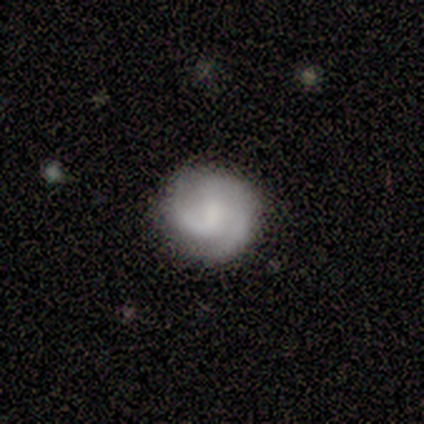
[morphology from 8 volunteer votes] smooth-or-featured: featured or disk: 75% | smooth: 25% | star or artifact: 0%
  disk-edge-on: no: 100% | yes: 0%
    bar: weak: 50% (tied) | no: 50% (tied) | strong: 0%
    has-spiral-arms: yes: 100% | no: 0%
      spiral-winding: medium: 67% | tight: 17% | loose: 17%
      spiral-arm-count: 2: 67% | 1: 17% | 3: 17% | 4: 0% | more than 4: 0% | can't tell: 0%
    bulge-size: none: 67% | small: 33% | dominant: 0% | large: 0% | moderate: 0%
  merging: none: 100% | minor disturbance: 0% | major disturbance: 0% | merger: 0%